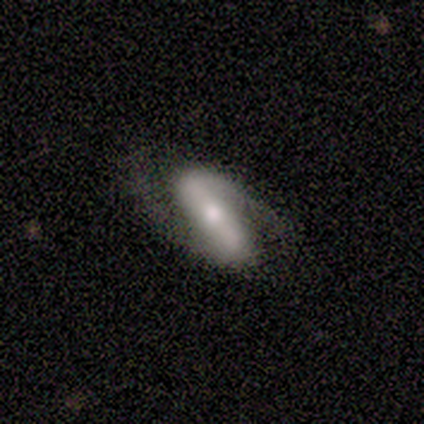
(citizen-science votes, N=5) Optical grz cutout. It shows a featured or disk galaxy (100%) with a strong bar (60%), 2 (100%) loose (60%) spiral arms (100%) and a moderate central bulge (80%). Merging: none (80%).